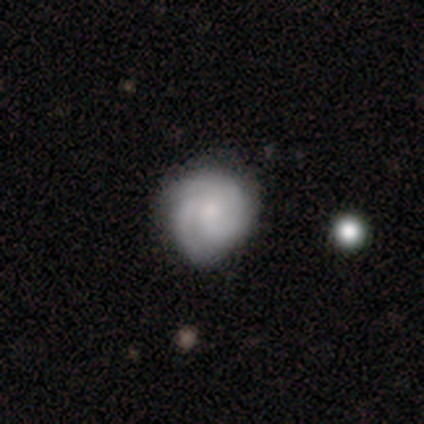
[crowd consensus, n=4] Smooth or featured? smooth (50%, tied with featured or disk)
How rounded? round (100%)
Merging? none (50%, tied with minor disturbance)